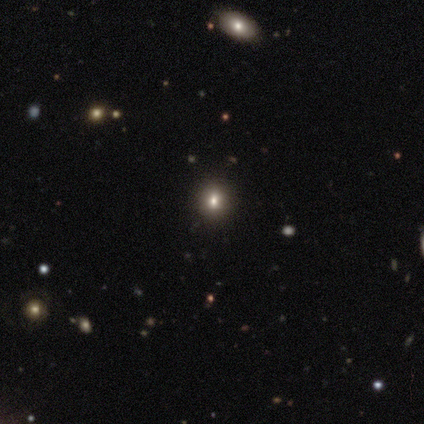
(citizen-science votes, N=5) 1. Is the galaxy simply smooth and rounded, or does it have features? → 80% smooth, 20% featured or disk, 0% star or artifact.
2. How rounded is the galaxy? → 75% round, 25% in between, 0% cigar-shaped.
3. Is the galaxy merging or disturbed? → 100% none, 0% minor disturbance, 0% major disturbance, 0% merger.